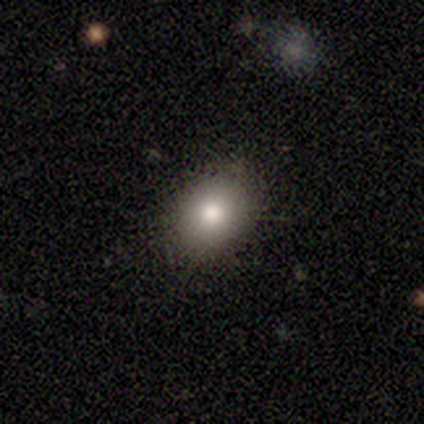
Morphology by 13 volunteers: Smooth or featured: smooth — 85% (featured or disk — 8%)
How rounded: in between — 64% (round — 36%)
Merging: none — 92% (major disturbance — 8%)